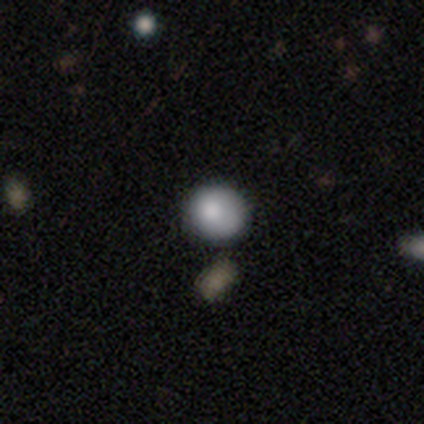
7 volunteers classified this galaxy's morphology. Smooth or featured? 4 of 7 (57%) said smooth. How rounded? 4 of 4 (100%) said round. Merging? 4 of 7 (57%) said none.